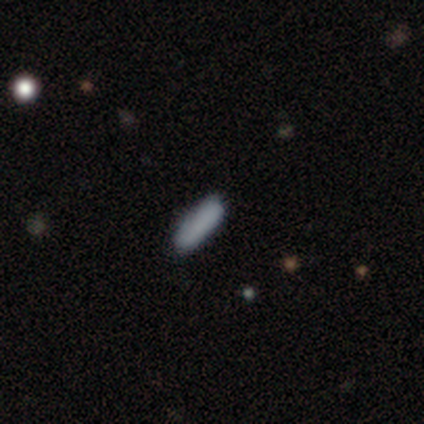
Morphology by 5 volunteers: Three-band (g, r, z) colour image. It shows a smooth galaxy with no disk features (100%) that is cigar-shaped (80%). Merging: none (100%).